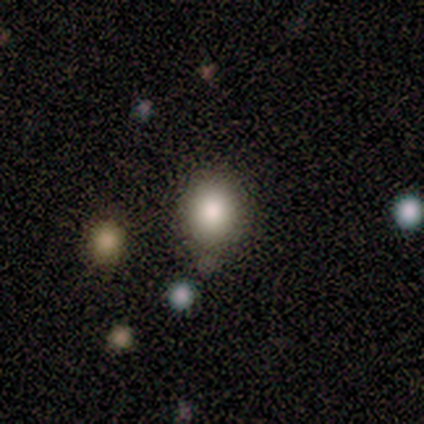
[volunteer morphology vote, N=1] A smooth galaxy with no disk features (100%) that is in between round and cigar-shaped (100%).

Vote fractions:
- Smooth or featured? smooth: 100% / featured or disk: 0% / star or artifact: 0%
- How rounded? in between: 100% / round: 0% / cigar-shaped: 0%
- Merging? merger: 100% / none: 0% / minor disturbance: 0% / major disturbance: 0%